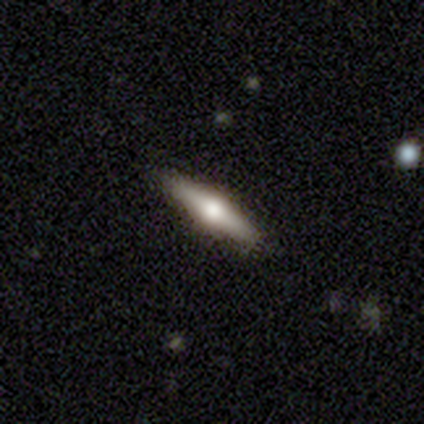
featured or disk 100%, smooth 0%, star or artifact 0%. Down the decision tree: edge-on disk — yes (100%); edge-on bulge — rounded (100%); merging — none (80%).